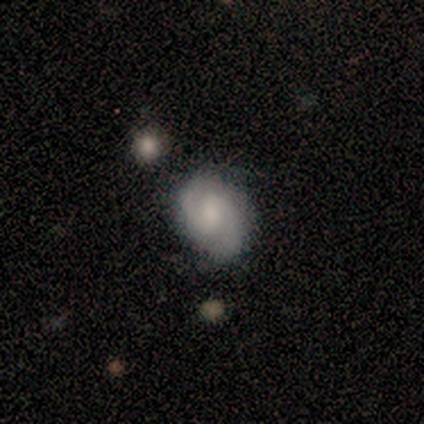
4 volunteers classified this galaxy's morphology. Overall: featured or disk (100%). Edge-on disk: no (100%). Bar: weak (75%). Spiral arms: yes (100%). Spiral arm count: 2 (100%). Spiral winding: tight (50%; medium 25%). Bulge size: small (50%; large 25%). Merging: none (75%).